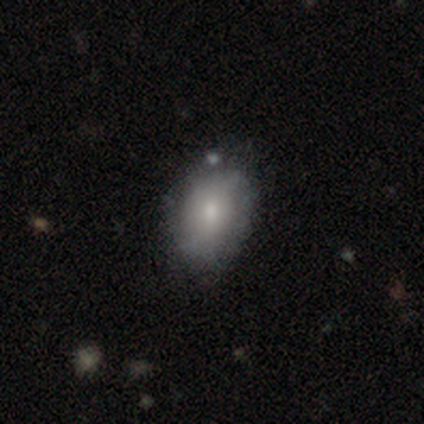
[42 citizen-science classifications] This is likely a smooth galaxy (69%). How rounded: likely in between (76%). Merging: likely none (72%).